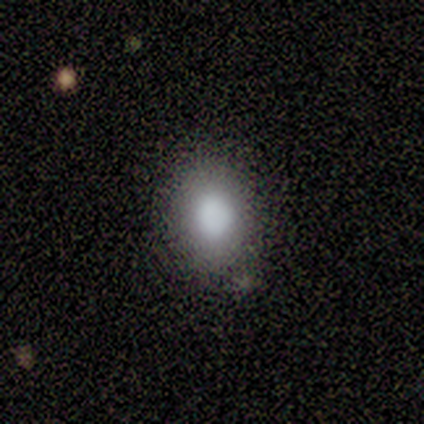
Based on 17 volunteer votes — Morphology: type=smooth (100%); roundness=round (53%); merging=none (88%).